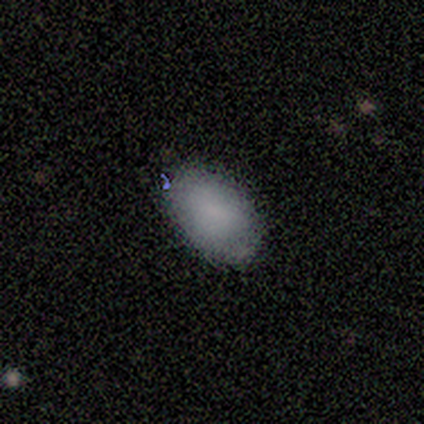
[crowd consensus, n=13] This appears to be a smooth galaxy with no disk features (77%) that is in between round and cigar-shaped (80%). Merging: none (83%).